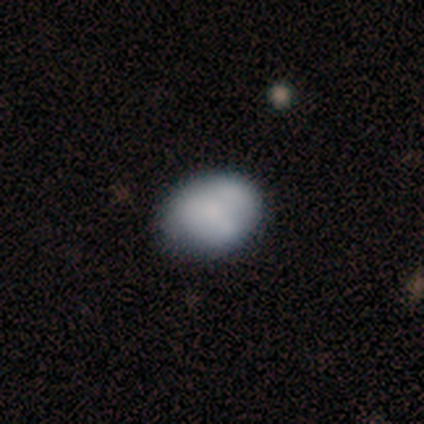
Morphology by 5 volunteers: smooth 60%, star or artifact 40%, featured or disk 0%. Down the decision tree: how rounded — round (67%); merging — none (67%).